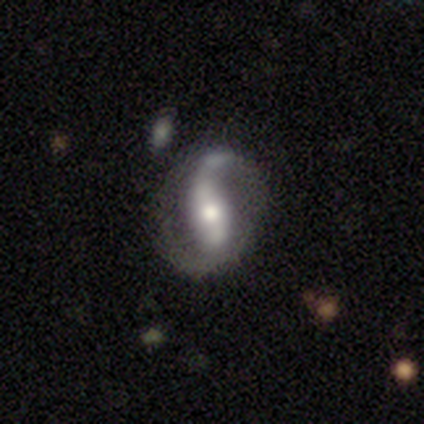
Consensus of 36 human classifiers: Smooth or featured? featured or disk (69%)
Edge-on disk? no (96%)
Bar? strong (50%)
Spiral arms? yes (96%)
Spiral winding? loose (78%)
Spiral arm count? 2 (87%)
Bulge size? moderate (75%)
Merging? none (73%)